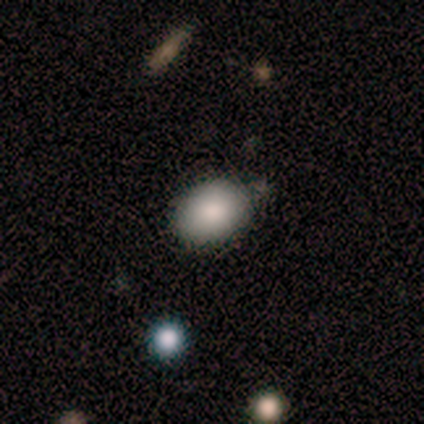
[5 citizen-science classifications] This appears to be a smooth galaxy with no disk features (100%) that is round (60%). Merging: minor disturbance (60%).